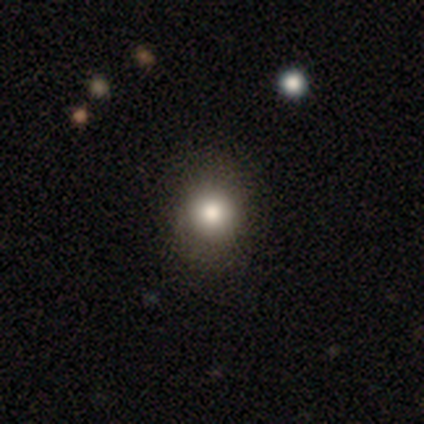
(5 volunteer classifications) Overall: smooth (60%; star or artifact 40%). How rounded: round (67%; in between 33%). Merging: none (67%; minor disturbance 33%).